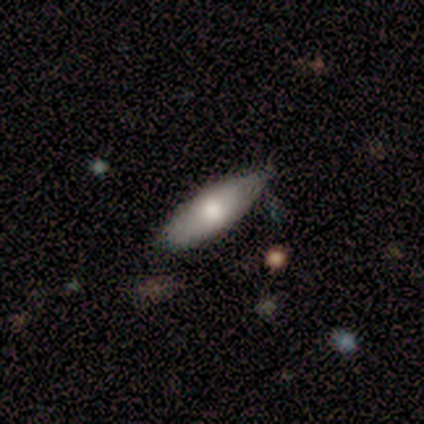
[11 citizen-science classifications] smooth_or_featured: smooth (p=0.73) [alt: featured or disk p=0.27]
how_rounded: in between (p=0.50) [tied with: cigar-shaped p=0.50]
merging: none (p=0.73) [alt: minor disturbance p=0.18]